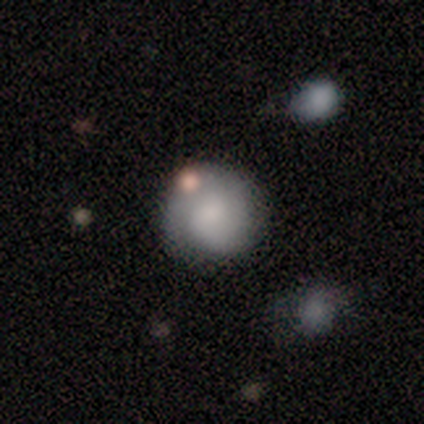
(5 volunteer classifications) Volunteers were most divided on "how rounded": round: 75%, in between: 25%, cigar-shaped: 0%. More confident: merging — none (100%); smooth or featured — smooth (80%).